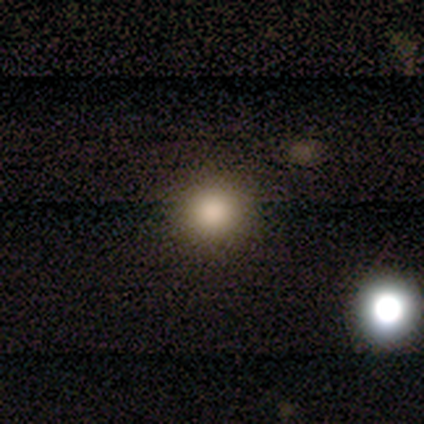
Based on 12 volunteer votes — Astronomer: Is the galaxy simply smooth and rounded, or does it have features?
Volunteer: smooth — 67%.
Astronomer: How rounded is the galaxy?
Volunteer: round — 88%.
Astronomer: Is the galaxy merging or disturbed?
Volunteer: none — 78%.